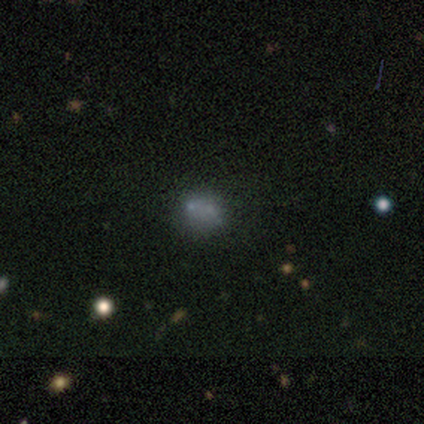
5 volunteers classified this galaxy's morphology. This is clearly a smooth galaxy (80%). How rounded: likely round (75%). Merging: possibly minor disturbance (50%).